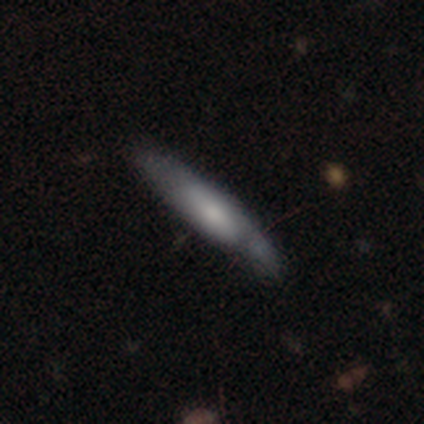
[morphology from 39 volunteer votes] smooth 54%, featured or disk 44%, star or artifact 3%. Down the decision tree: how rounded — cigar-shaped (86%); merging — none (74%).